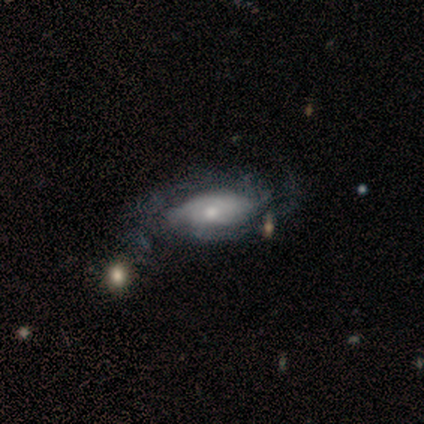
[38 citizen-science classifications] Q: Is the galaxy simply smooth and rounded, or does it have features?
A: featured or disk — 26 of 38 (68%).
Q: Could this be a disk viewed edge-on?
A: no — 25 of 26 (96%).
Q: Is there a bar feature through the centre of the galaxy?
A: no — 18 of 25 (72%).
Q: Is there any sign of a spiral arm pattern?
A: yes — 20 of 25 (80%).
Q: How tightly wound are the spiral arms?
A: medium — 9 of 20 (45%).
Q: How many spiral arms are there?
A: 2 — 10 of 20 (50%).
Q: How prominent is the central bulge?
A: small — 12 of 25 (48%).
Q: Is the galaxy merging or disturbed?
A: none — 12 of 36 (33%).